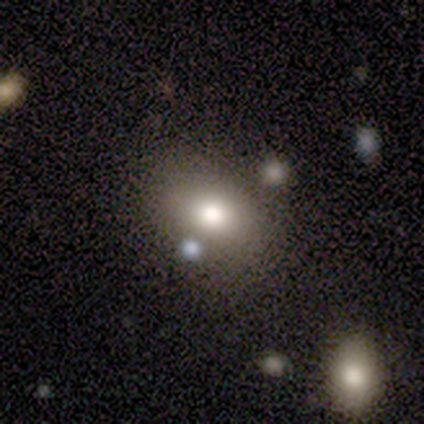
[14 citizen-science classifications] Volunteers were most divided on "merging": none: 54%, merger: 31%, minor disturbance: 15%, major disturbance: 0%. More confident: how rounded — in between (78%); smooth or featured — smooth (64%).